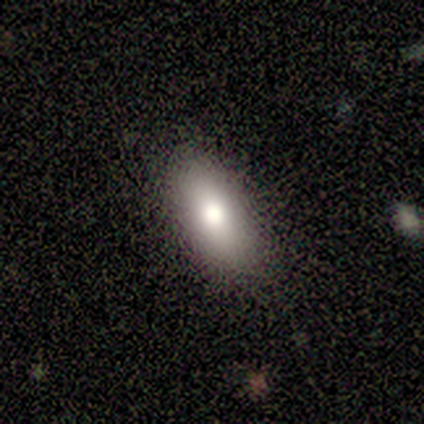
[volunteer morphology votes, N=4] Smooth or featured? smooth (75%)
How rounded? in between (100%)
Merging? none (100%)